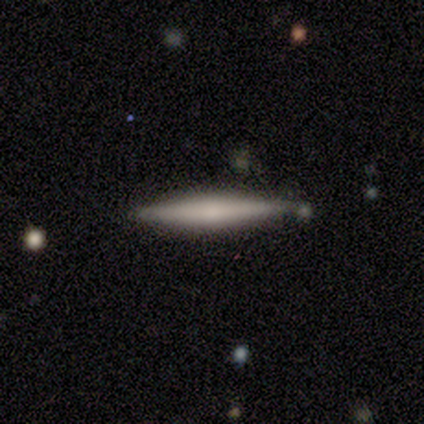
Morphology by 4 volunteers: Smooth or featured? 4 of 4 (100%) said featured or disk. Edge-on disk? 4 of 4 (100%) said yes. Edge-on bulge? 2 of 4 (50%) said none. Merging? 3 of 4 (75%) said none.